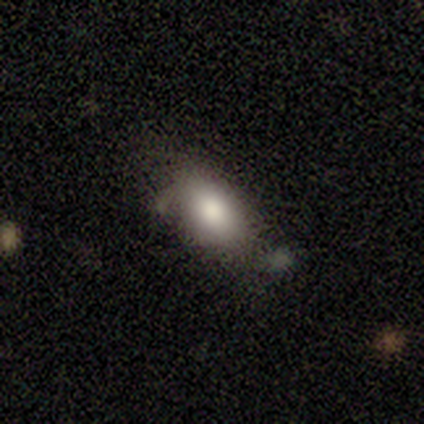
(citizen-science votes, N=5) smooth_or_featured: smooth (p=0.80) [alt: featured or disk p=0.20]
how_rounded: in between (p=1.00)
merging: none (p=0.60) [alt: minor disturbance p=0.40]